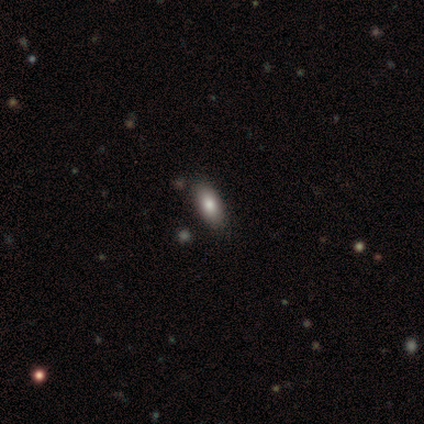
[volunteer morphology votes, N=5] This appears to be a smooth galaxy with no disk features (60%) that is in between round and cigar-shaped (100%). Merging: none (60%).